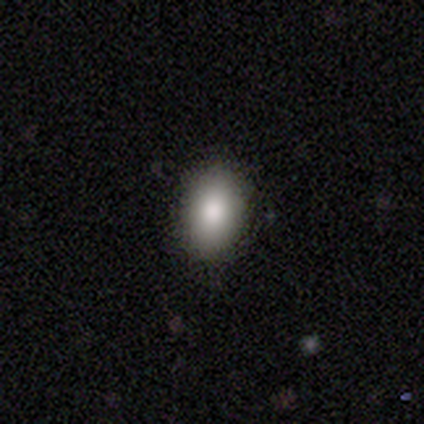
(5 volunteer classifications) Smooth or featured? smooth (100%)
How rounded? in between (100%)
Merging? none (100%)